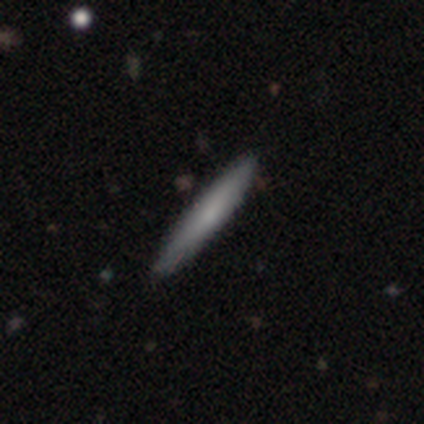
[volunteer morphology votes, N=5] smooth 100%, featured or disk 0%, star or artifact 0%. Down the decision tree: how rounded — cigar-shaped (100%); merging — none (80%).